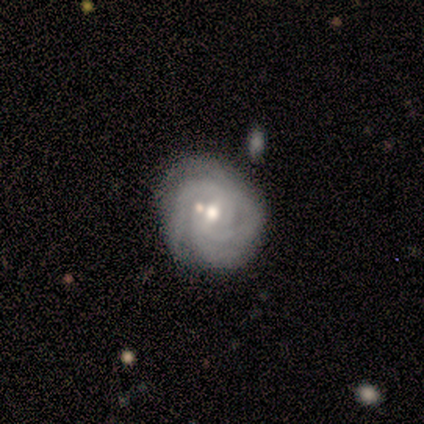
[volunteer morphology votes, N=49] smooth_or_featured: featured or disk (p=0.78) [alt: smooth p=0.12]
disk_edge_on: no (p=0.97) [alt: yes p=0.03]
bar: weak (p=0.59) [alt: no p=0.30]
has_spiral_arms: yes (p=0.95) [alt: no p=0.05]
spiral_winding: tight (p=0.63) [alt: medium p=0.34]
spiral_arm_count: 3 (p=0.34) [alt: can't tell p=0.29]
bulge_size: moderate (p=0.62) [alt: small p=0.24]
merging: none (p=0.52) [alt: minor disturbance p=0.41]